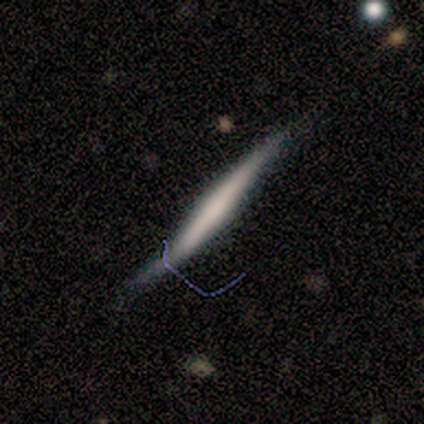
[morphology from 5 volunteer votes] Smooth or featured? smooth (40%, tied with star or artifact)
How rounded? cigar-shaped (100%)
Merging? none (67%)